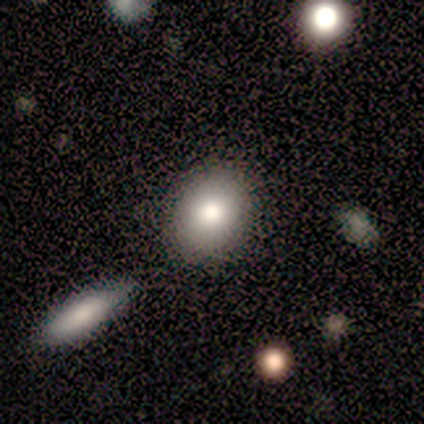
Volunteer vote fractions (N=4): Smooth or featured?
  - smooth: 75% *
  - featured or disk: 25%
  - star or artifact: 0%
How rounded?
  - round: 67% *
  - in between: 33%
  - cigar-shaped: 0%
Merging?
  - none: 75% *
  - minor disturbance: 25%
  - major disturbance: 0%
  - merger: 0%